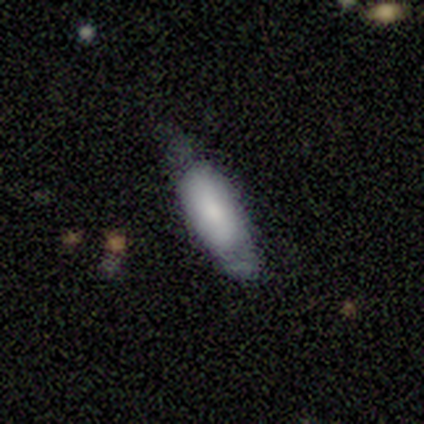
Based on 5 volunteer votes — Smooth or featured: smooth — 100%
How rounded: in between — 80% (cigar-shaped — 20%)
Merging: none — 60% (minor disturbance — 20%)